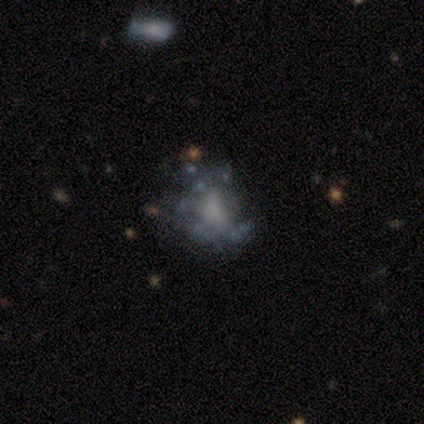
A featured or disk galaxy (80%) with no bar (100%), no spiral arms (75%) and no central bulge (50%).

Vote fractions:
- Smooth or featured? featured or disk: 80% / smooth: 20% / star or artifact: 0%
- Edge-on disk? no: 100% / yes: 0%
- Bar? no: 100% / strong: 0% / weak: 0%
- Spiral arms? no: 75% / yes: 25%
- Bulge size? none: 50% / large: 25% / small: 25% / dominant: 0% / moderate: 0%
- Merging? none: 60% / minor disturbance: 20% / major disturbance: 20% / merger: 0%